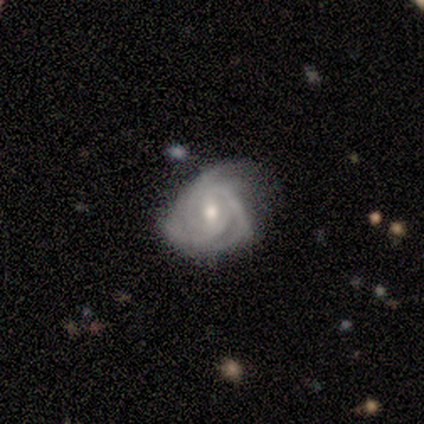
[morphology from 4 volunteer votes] This is clearly a featured or disk galaxy (100%). It is likely not viewed edge-on (75%). Bar: clearly weak (100%). Spiral arm pattern: clearly yes (100%). Spiral arm count: marginally 2 (33%, tied with 3 and can't tell). Spiral winding: clearly tight (100%). Central bulge: clearly moderate (100%). Merging: possibly minor disturbance (50%).